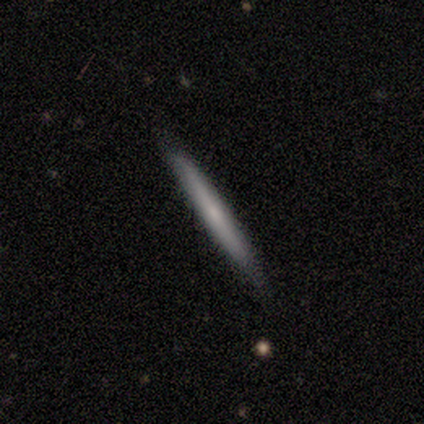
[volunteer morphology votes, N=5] smooth_or_featured: smooth (p=0.80) [alt: featured or disk p=0.20]
how_rounded: cigar-shaped (p=1.00)
merging: none (p=1.00)